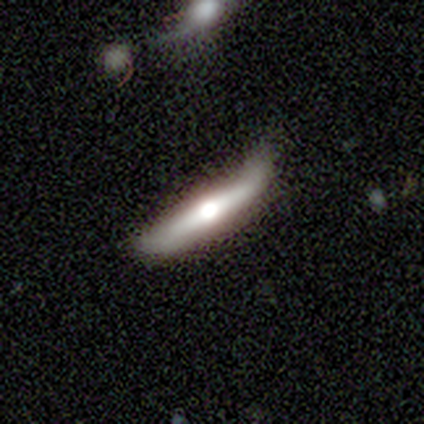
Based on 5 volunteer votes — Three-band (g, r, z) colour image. It shows a featured or disk galaxy (80%) viewed edge-on (100%) with a rounded central bulge (100%). Merging: none (40%).